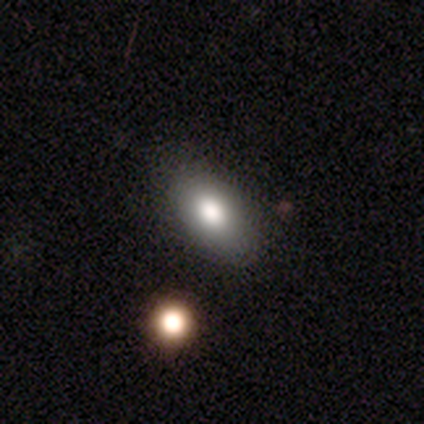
Smooth or featured? smooth (100%)
How rounded? in between (100%)
Merging? none (80%)